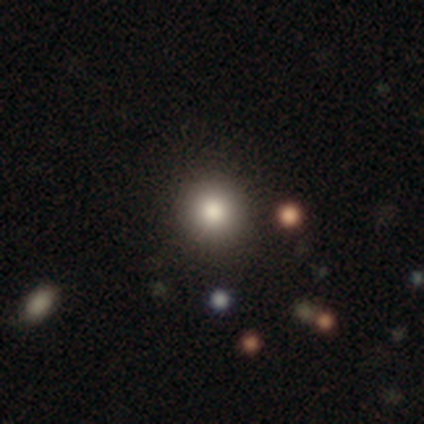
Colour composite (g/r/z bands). It shows a smooth galaxy with no disk features (82%) that is round (97%). Merging: none (83%).